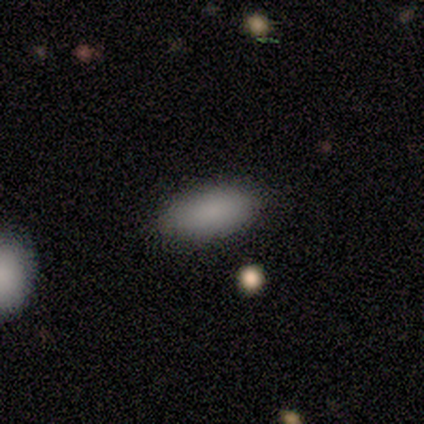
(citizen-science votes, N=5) Smooth or featured? smooth (100%)
How rounded? in between (80%)
Merging? none (100%)